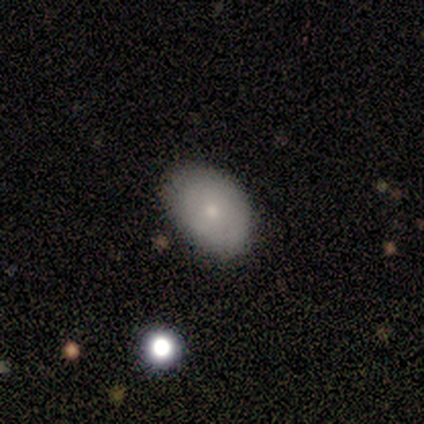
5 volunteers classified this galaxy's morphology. Smooth or featured: smooth — 60% (featured or disk — 20%)
How rounded: in between — 67% (round — 33%)
Merging: none — 100%